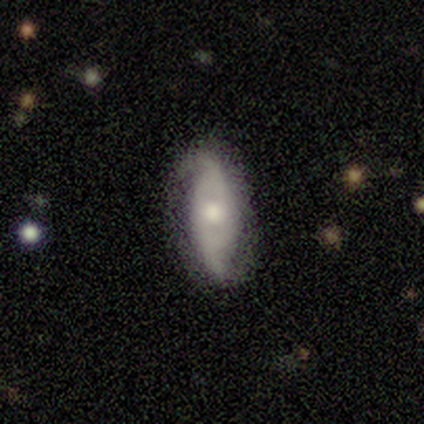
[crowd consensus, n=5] Overall: featured or disk (100%). Edge-on disk: no (80%). Bar: strong (50%, tied with weak). Spiral arms: yes (100%). Spiral arm count: 2 (100%). Spiral winding: medium (50%; tight 25%). Bulge size: moderate (75%). Merging: none (40%, tied with minor disturbance).